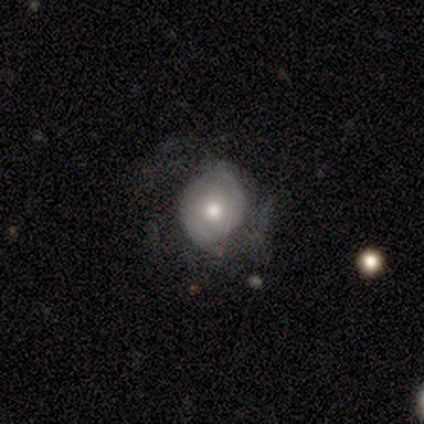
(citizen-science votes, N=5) Smooth or featured?
  - smooth: 60% *
  - featured or disk: 40%
  - star or artifact: 0%
How rounded?
  - in between: 67% *
  - round: 33%
  - cigar-shaped: 0%
Merging?
  - none: 80% *
  - major disturbance: 20%
  - minor disturbance: 0%
  - merger: 0%